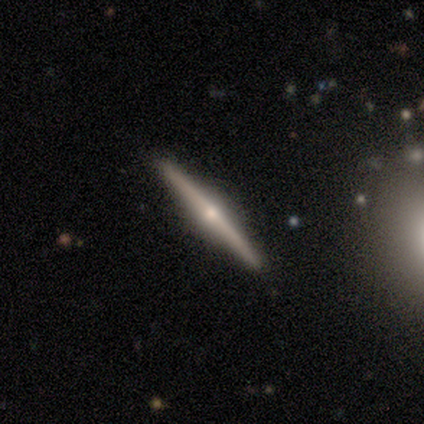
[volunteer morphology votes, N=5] This is likely a featured or disk galaxy (60%). It is clearly viewed edge-on (100%). Edge-on bulge: likely rounded (67%). Merging: clearly none (80%).